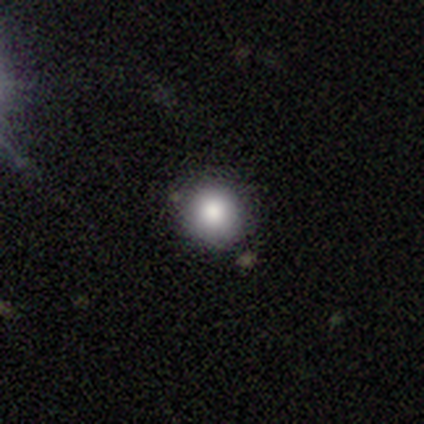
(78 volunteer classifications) smooth 81%, featured or disk 10%, star or artifact 9%. Down the decision tree: how rounded — round (92%); merging — none (46%).